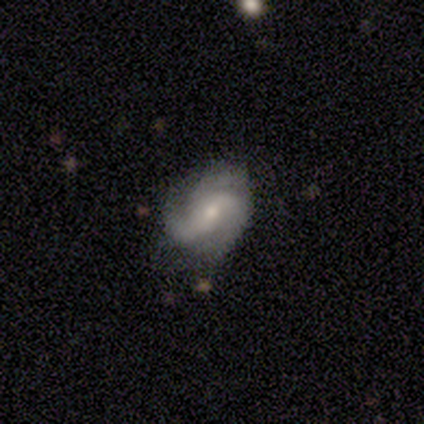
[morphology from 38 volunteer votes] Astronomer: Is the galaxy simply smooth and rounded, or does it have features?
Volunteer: featured or disk — 79%.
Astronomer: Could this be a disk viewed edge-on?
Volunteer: no — 100%.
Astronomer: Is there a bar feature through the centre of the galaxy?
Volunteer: no — 53% (runner-up: weak, 30%).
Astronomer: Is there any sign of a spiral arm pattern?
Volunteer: yes — 97%.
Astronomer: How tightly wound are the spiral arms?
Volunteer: loose — 38% (runner-up: tight, 31%).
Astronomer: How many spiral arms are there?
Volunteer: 3 — 52% (runner-up: 2, 38%).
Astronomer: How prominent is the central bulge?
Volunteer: small — 60% (runner-up: moderate, 40%).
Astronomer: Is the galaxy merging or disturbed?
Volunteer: none — 77%.